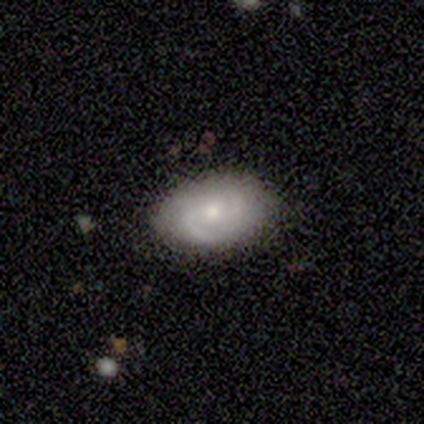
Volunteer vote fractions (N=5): Morphology: type=smooth (60%); roundness=in between (100%); merging=none (80%).